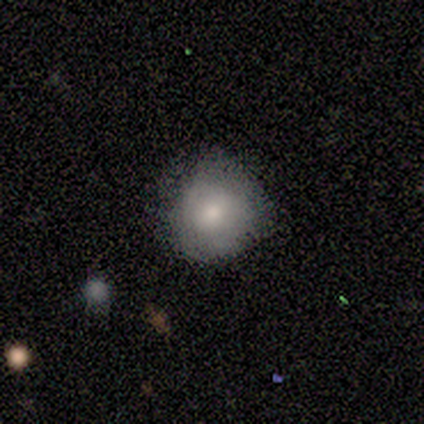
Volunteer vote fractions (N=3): Q: Smooth or featured?
A: smooth (100%)
Q: How rounded?
A: round (100%)
Q: Merging?
A: none (67%); runner-up: minor disturbance (33%)